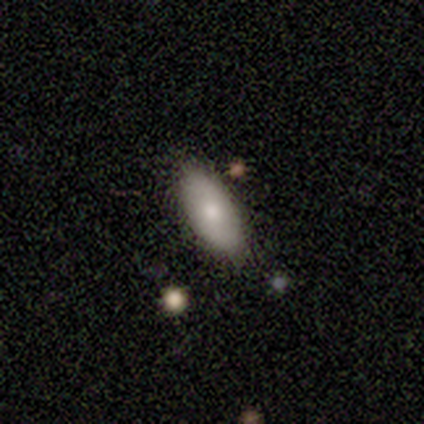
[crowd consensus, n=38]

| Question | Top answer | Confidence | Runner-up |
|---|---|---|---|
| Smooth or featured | smooth | 87% | star or artifact (8%) |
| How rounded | in between | 97% | cigar-shaped (3%) |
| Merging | none | 91% | minor disturbance (9%) |